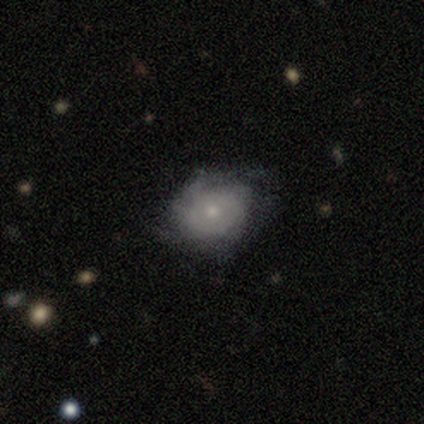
Smooth or featured?
  - featured or disk: 54% *
  - smooth: 38%
  - star or artifact: 8%
Edge-on disk?
  - no: 92% *
  - yes: 8%
Bar?
  - no: 93% *
  - weak: 5%
  - strong: 2%
Spiral arms?
  - yes: 68% *
  - no: 32%
Spiral winding?
  - tight: 80% *
  - medium: 17%
  - loose: 3%
Spiral arm count?
  - can't tell: 53% *
  - 2: 17%
  - 3: 13%
  - 4: 13%
  - more than 4: 3%
  - 1: 0%
Bulge size?
  - small: 61% *
  - moderate: 36%
  - large: 2%
  - dominant: 0%
  - none: 0%
Merging?
  - none: 62% *
  - minor disturbance: 26%
  - major disturbance: 11%
  - merger: 1%